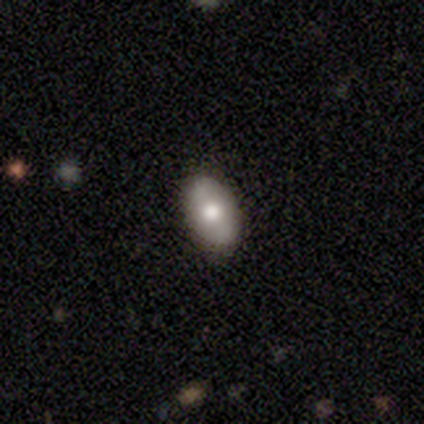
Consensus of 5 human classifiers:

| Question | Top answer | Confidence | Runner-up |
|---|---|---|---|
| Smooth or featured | smooth | 80% | featured or disk (20%) |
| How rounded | in between | 75% | round (25%) |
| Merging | none | 100% | — |